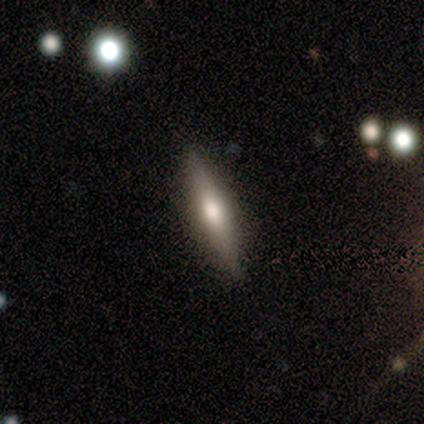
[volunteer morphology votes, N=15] Overall: featured or disk (73%). Edge-on disk: yes (91%). Edge-on bulge: rounded (80%). Merging: none (100%).